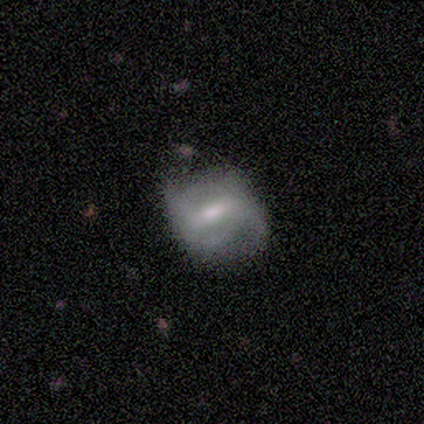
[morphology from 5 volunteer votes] smooth_or_featured: featured or disk (p=0.80) [alt: smooth p=0.20]
disk_edge_on: no (p=1.00)
bar: weak (p=0.75) [alt: strong p=0.25]
has_spiral_arms: yes (p=0.75) [alt: no p=0.25]
spiral_winding: loose (p=0.67) [alt: medium p=0.33]
spiral_arm_count: 2 (p=0.67) [alt: can't tell p=0.33]
bulge_size: moderate (p=0.50) [tied with: small p=0.50]
merging: none (p=0.60) [alt: major disturbance p=0.40]